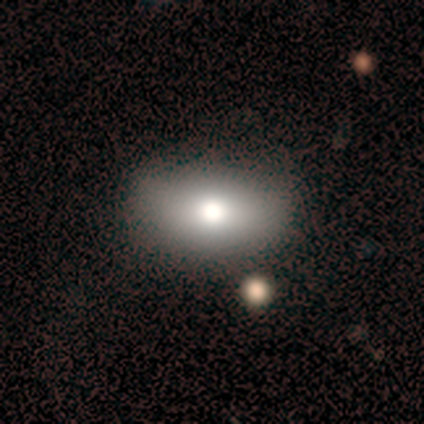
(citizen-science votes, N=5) A smooth galaxy with no disk features (80%) that is in between round and cigar-shaped (100%).

Vote fractions:
- Smooth or featured? smooth: 80% / featured or disk: 20% / star or artifact: 0%
- How rounded? in between: 100% / round: 0% / cigar-shaped: 0%
- Merging? none: 100% / minor disturbance: 0% / major disturbance: 0% / merger: 0%